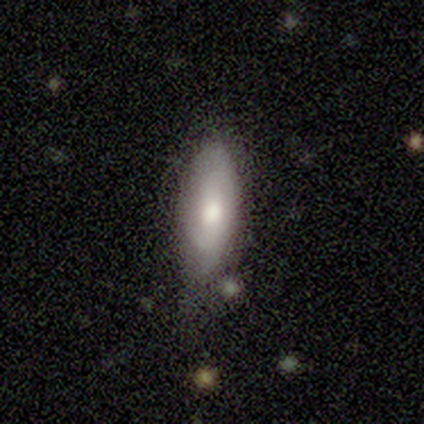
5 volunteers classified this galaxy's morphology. type=smooth (80%); roundness=in between (75%); merging=minor disturbance (60%).